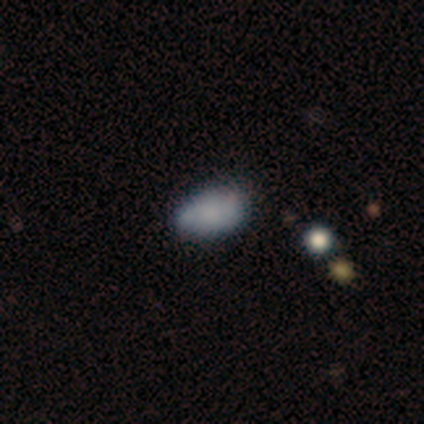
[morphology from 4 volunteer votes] This is likely a smooth galaxy (75%). How rounded: likely in between (67%). Merging: possibly minor disturbance (50%).